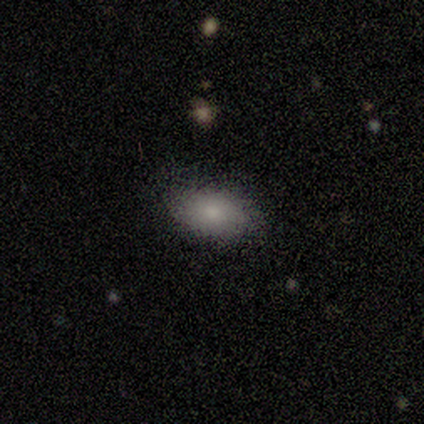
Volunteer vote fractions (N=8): Smooth or featured?
  - smooth: 75% *
  - featured or disk: 12%
  - star or artifact: 12%
How rounded?
  - in between: 83% *
  - round: 17%
  - cigar-shaped: 0%
Merging?
  - none: 71% *
  - major disturbance: 14%
  - merger: 14%
  - minor disturbance: 0%